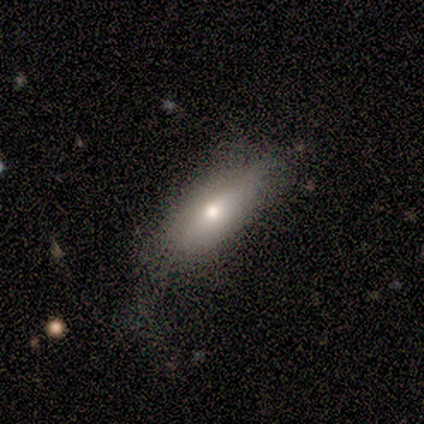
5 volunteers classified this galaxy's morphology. Q: Smooth or featured?
A: featured or disk (80%); runner-up: smooth (20%)
Q: Edge-on disk?
A: yes (50%); tied with: no (50%)
Q: Edge-on bulge?
A: rounded (100%)
Q: Merging?
A: major disturbance (60%); runner-up: none (40%)